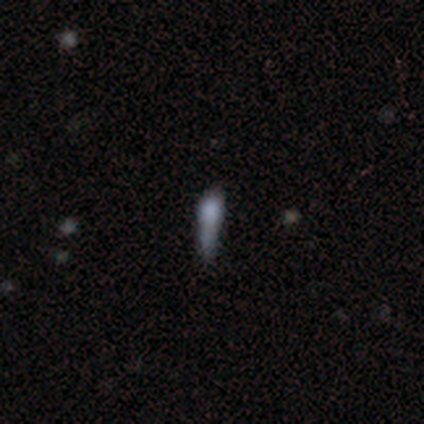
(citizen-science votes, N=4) smooth-or-featured: smooth: 100% | featured or disk: 0% | star or artifact: 0%
  how-rounded: cigar-shaped: 75% | in between: 25% | round: 0%
  merging: none: 75% | minor disturbance: 25% | major disturbance: 0% | merger: 0%